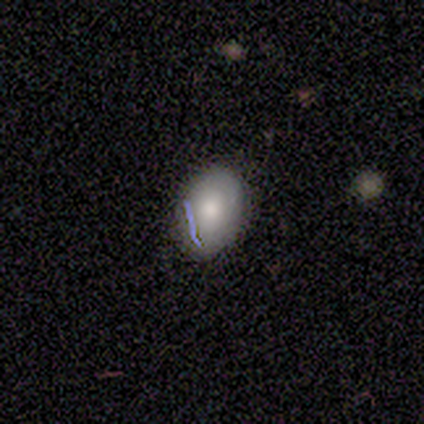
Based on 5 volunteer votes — smooth_or_featured: smooth (p=1.00)
how_rounded: in between (p=1.00)
merging: none (p=1.00)